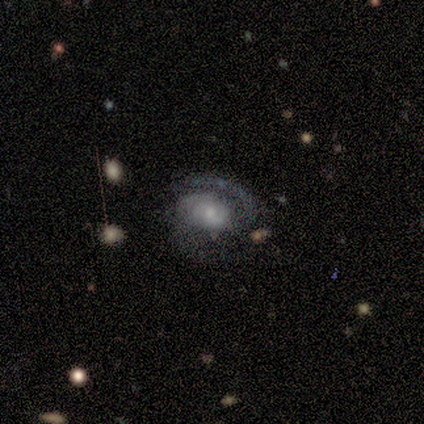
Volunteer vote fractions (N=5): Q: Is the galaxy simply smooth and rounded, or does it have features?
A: featured or disk — 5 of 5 (100%).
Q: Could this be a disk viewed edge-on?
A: no — 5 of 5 (100%).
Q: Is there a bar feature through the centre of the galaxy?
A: no — 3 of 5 (60%).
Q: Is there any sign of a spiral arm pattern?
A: yes — 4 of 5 (80%).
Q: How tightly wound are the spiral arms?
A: medium — 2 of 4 (50%).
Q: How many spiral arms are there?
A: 2 — 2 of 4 (50%, tied with can't tell).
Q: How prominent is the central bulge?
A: small — 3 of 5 (60%).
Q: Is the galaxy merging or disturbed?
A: none — 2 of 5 (40%, tied with major disturbance).